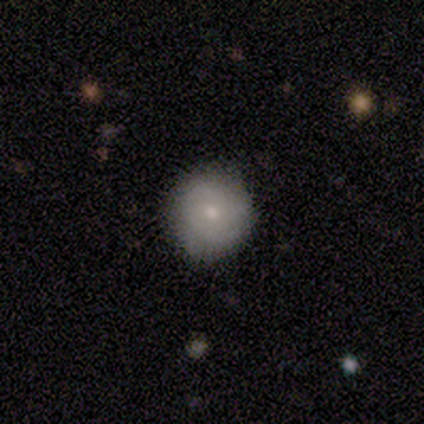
This is possibly a smooth galaxy (54%). How rounded: clearly round (100%). Merging: clearly none (84%).